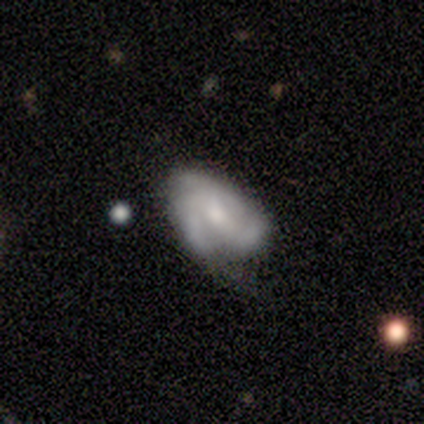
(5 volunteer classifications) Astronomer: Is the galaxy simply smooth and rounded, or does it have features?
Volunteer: featured or disk — 60% (runner-up: smooth, 40%).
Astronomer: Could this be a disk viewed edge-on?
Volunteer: no — 100%.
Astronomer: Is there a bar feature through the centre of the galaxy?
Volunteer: no — 67%.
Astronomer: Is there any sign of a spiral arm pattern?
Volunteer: yes — 100%.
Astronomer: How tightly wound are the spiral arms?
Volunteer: medium — 67%.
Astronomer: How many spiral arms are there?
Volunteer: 3 — 67%.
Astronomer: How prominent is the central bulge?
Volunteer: small — 67%.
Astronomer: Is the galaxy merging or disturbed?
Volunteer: minor disturbance — 60% (runner-up: none, 40%).